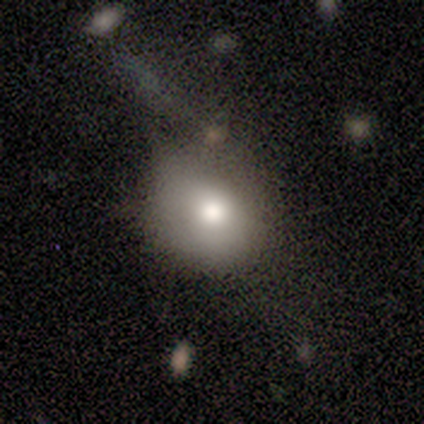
This is clearly a smooth galaxy (80%). How rounded: clearly round (100%). Merging: marginally none (40%, tied with minor disturbance).